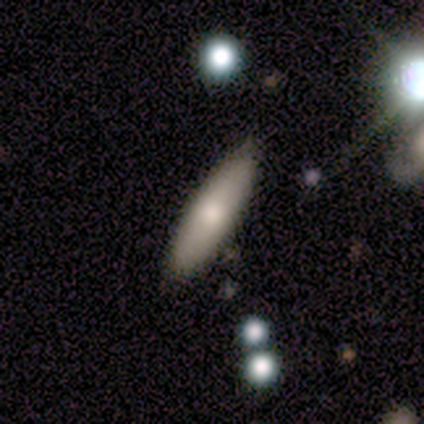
Volunteers were most divided on "how rounded": cigar-shaped: 60%, in between: 40%, round: 0%. More confident: smooth or featured — smooth (100%); merging — none (60%).